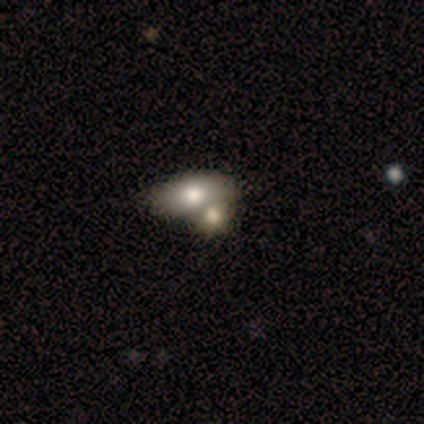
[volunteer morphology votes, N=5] Smooth or featured? smooth (80%)
How rounded? in between (75%)
Merging? merger (50%)